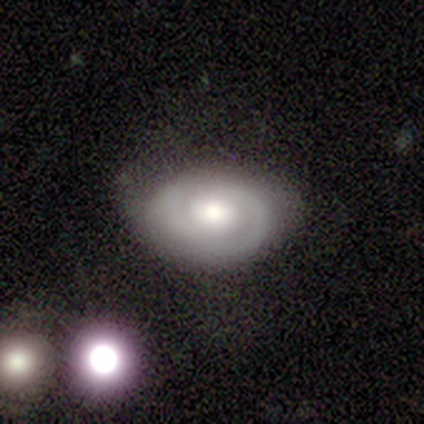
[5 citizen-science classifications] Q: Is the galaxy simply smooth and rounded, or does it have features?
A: featured or disk — 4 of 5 (80%).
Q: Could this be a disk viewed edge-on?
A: no — 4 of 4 (100%).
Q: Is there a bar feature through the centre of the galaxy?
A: no — 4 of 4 (100%).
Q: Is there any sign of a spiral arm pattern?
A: yes — 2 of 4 (50%, tied with no).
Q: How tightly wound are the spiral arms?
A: tight — 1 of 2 (50%, tied with medium).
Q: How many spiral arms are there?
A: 2 — 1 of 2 (50%, tied with can't tell).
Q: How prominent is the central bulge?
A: moderate — 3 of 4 (75%).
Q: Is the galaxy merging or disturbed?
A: none — 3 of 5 (60%).